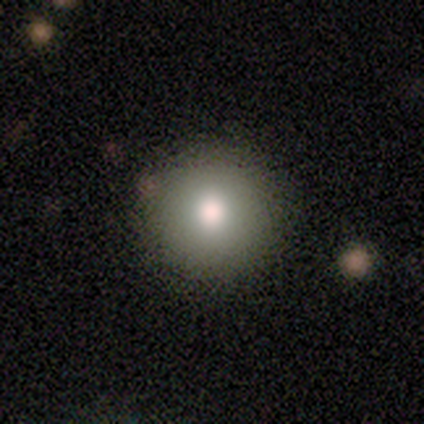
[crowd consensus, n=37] Overall: smooth (70%). How rounded: round (88%). Merging: none (94%).